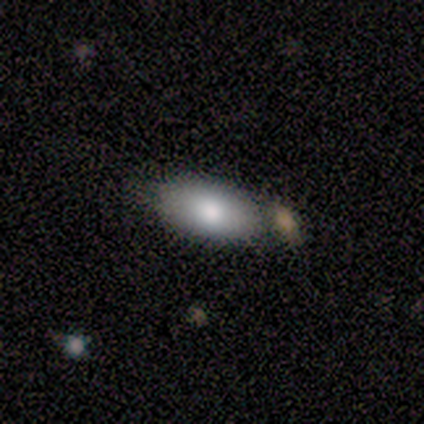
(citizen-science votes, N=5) Smooth or featured?
  - smooth: 80% *
  - star or artifact: 20%
  - featured or disk: 0%
How rounded?
  - in between: 100% *
  - round: 0%
  - cigar-shaped: 0%
Merging?
  - none: 50% *
  - minor disturbance: 25%
  - merger: 25%
  - major disturbance: 0%